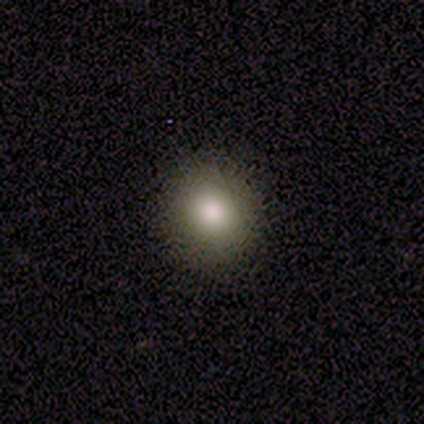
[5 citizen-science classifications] smooth_or_featured: smooth (p=0.80) [alt: star or artifact p=0.20]
how_rounded: round (p=1.00)
merging: none (p=0.75) [alt: minor disturbance p=0.25]